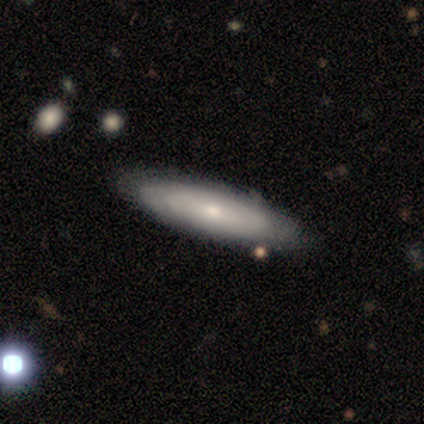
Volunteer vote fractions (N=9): smooth-or-featured: smooth: 67% | featured or disk: 33% | star or artifact: 0%
  how-rounded: cigar-shaped: 67% | in between: 33% | round: 0%
  merging: none: 78% | minor disturbance: 11% | major disturbance: 11% | merger: 0%